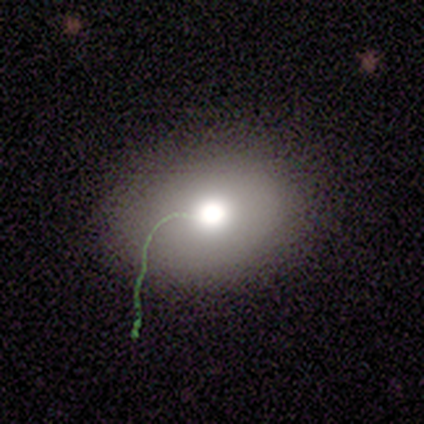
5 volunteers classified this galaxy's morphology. Smooth or featured?
  - smooth: 80% *
  - star or artifact: 20%
  - featured or disk: 0%
How rounded?
  - in between: 75% *
  - round: 25%
  - cigar-shaped: 0%
Merging?
  - none: 100% *
  - minor disturbance: 0%
  - major disturbance: 0%
  - merger: 0%